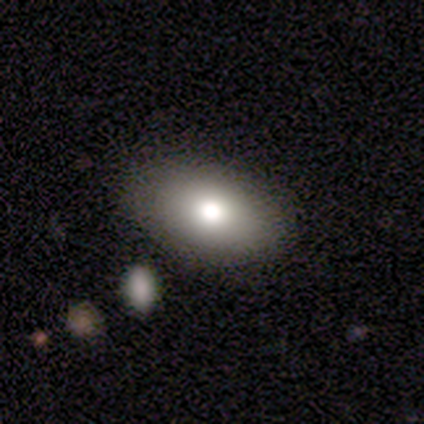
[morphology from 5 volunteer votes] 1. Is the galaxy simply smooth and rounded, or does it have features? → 60% smooth, 40% star or artifact, 0% featured or disk.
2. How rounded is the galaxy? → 100% in between, 0% round, 0% cigar-shaped.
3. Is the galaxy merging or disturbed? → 67% minor disturbance, 33% none, 0% major disturbance, 0% merger.